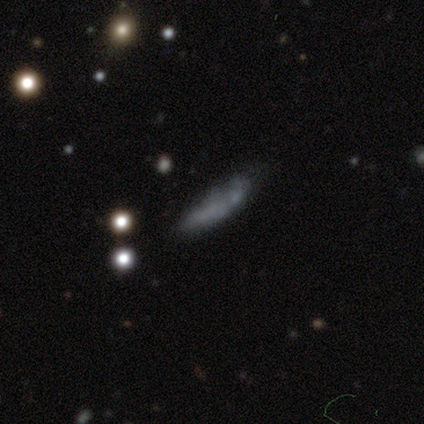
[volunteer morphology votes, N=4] Volunteers were most divided on "merging" (2-way tie): none: 50%, minor disturbance: 50%, major disturbance: 0%, merger: 0%. More confident: smooth or featured — smooth (75%); how rounded — cigar-shaped (67%).